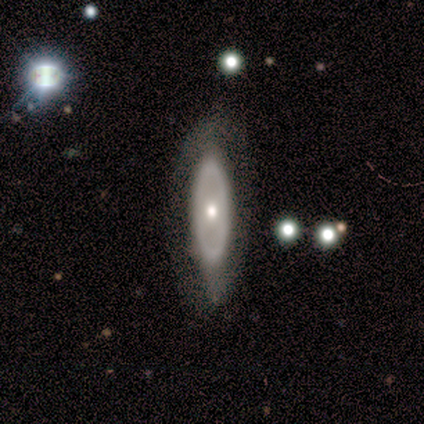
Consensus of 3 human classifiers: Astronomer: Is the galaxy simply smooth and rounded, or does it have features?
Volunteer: smooth — 67%.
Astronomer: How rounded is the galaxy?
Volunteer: in between — 100%.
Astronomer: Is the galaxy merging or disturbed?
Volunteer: major disturbance — 67%.